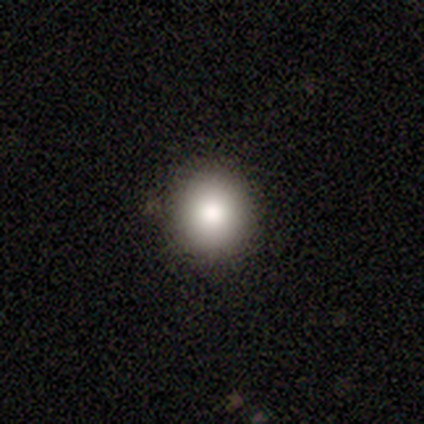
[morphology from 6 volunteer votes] This is clearly a smooth galaxy (100%). How rounded: clearly round (83%). Merging: clearly none (83%).